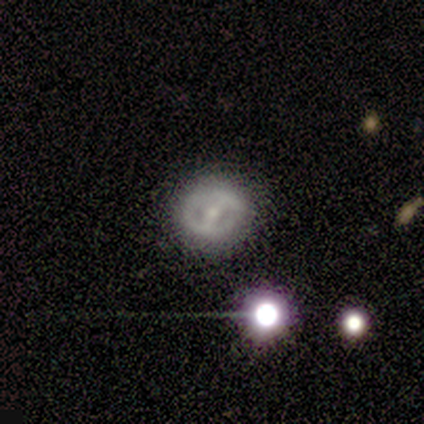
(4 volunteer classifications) Q: Smooth or featured?
A: featured or disk (50%); tied with: star or artifact (50%)
Q: Edge-on disk?
A: no (100%)
Q: Bar?
A: strong (50%); tied with: no (50%)
Q: Spiral arms?
A: yes (50%); tied with: no (50%)
Q: Spiral winding?
A: tight (100%)
Q: Spiral arm count?
A: can't tell (100%)
Q: Bulge size?
A: moderate (50%); tied with: small (50%)
Q: Merging?
A: none (100%)